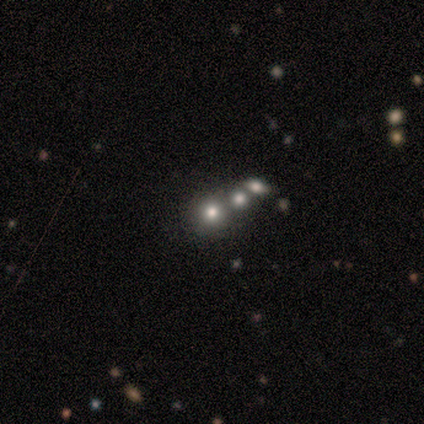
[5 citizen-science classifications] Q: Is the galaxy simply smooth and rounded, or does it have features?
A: smooth — 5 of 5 (100%).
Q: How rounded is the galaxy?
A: round — 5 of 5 (100%).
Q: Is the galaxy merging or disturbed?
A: merger — 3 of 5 (60%).